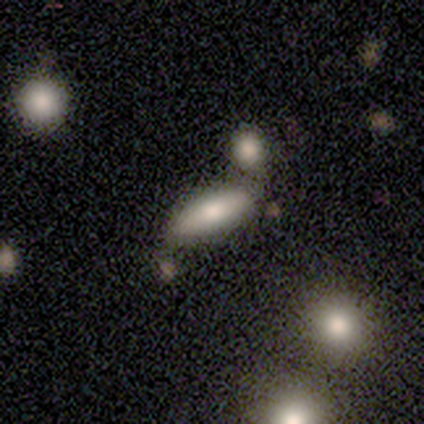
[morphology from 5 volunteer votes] Q: Smooth or featured?
A: smooth (80%); runner-up: featured or disk (20%)
Q: How rounded?
A: in between (50%); tied with: cigar-shaped (50%)
Q: Merging?
A: none (60%); runner-up: minor disturbance (20%)